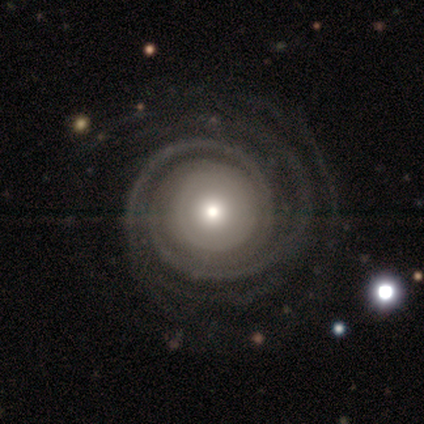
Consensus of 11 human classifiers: Volunteers were most divided on "bulge size": moderate: 55%, small: 36%, large: 9%, dominant: 0%, none: 0%. More confident: smooth or featured — featured or disk (100%); edge-on disk — no (100%); spiral arms — yes (100%); bar — no (91%); merging — none (91%); spiral winding — tight (73%); spiral arm count — can't tell (55%).